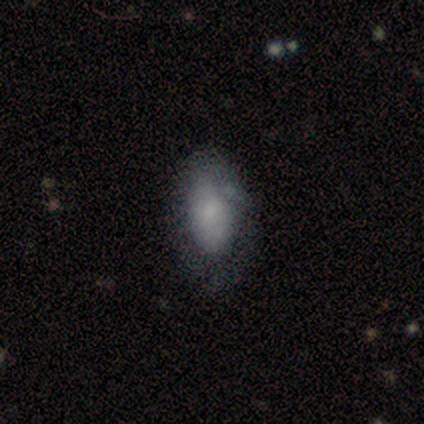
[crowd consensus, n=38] This is likely a smooth galaxy (71%). How rounded: clearly in between (89%). Merging: marginally none (33%).